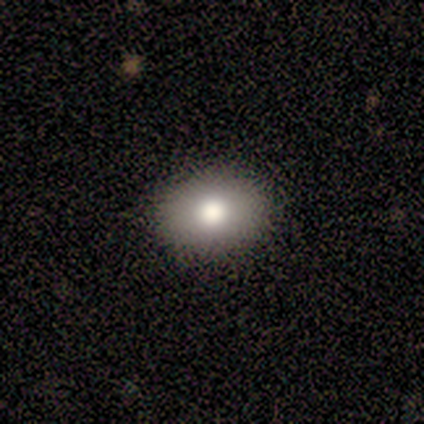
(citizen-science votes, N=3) Smooth or featured? smooth (67%)
How rounded? round (100%)
Merging? none (50%, tied with major disturbance)